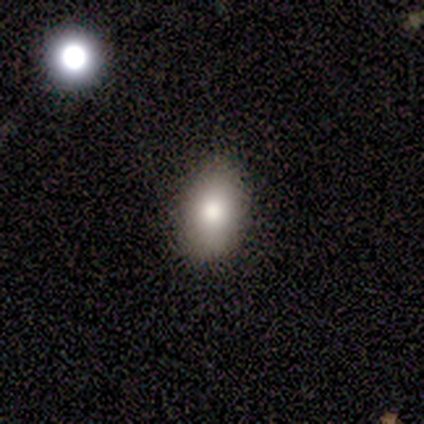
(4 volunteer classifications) smooth_or_featured: smooth (p=1.00)
how_rounded: in between (p=0.75) [alt: cigar-shaped p=0.25]
merging: none (p=1.00)